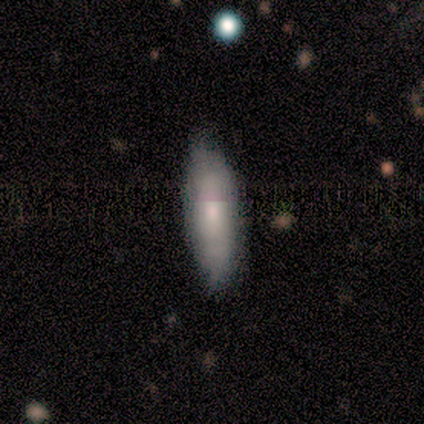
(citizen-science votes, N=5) smooth-or-featured: featured or disk: 60% | smooth: 40% | star or artifact: 0%
  disk-edge-on: no: 100% | yes: 0%
    bar: no: 67% | weak: 33% | strong: 0%
    has-spiral-arms: yes: 67% | no: 33%
      spiral-winding: medium: 50% (tied) | loose: 50% (tied) | tight: 0%
      spiral-arm-count: 2: 50% (tied) | can't tell: 50% (tied) | 1: 0% | 3: 0% | 4: 0% | more than 4: 0%
    bulge-size: large: 33% (tied) | moderate: 33% (tied) | small: 33% (tied) | dominant: 0% | none: 0%
  merging: none: 40% (tied) | minor disturbance: 40% (tied) | major disturbance: 20% | merger: 0%